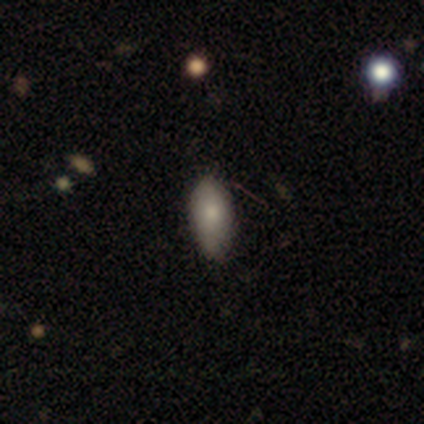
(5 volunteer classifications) Smooth or featured? 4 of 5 (80%) said smooth. How rounded? 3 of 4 (75%) said in between. Merging? 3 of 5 (60%) said minor disturbance.